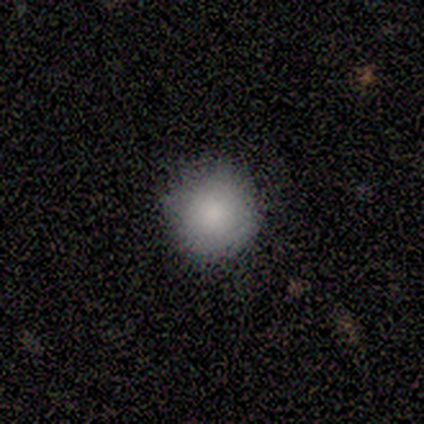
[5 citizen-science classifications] Q: Smooth or featured?
A: smooth (100%)
Q: How rounded?
A: round (100%)
Q: Merging?
A: none (80%); runner-up: major disturbance (20%)